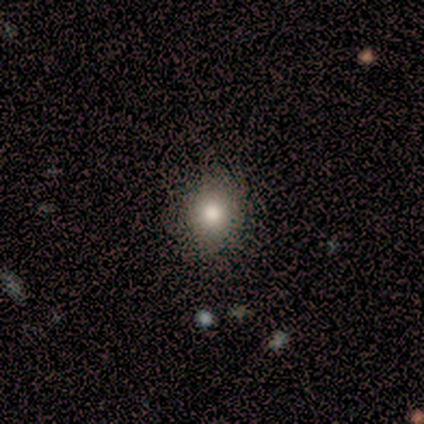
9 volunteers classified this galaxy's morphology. Smooth or featured: smooth — 78% (featured or disk — 22%)
How rounded: round — 86% (in between — 14%)
Merging: none — 89% (minor disturbance — 11%)